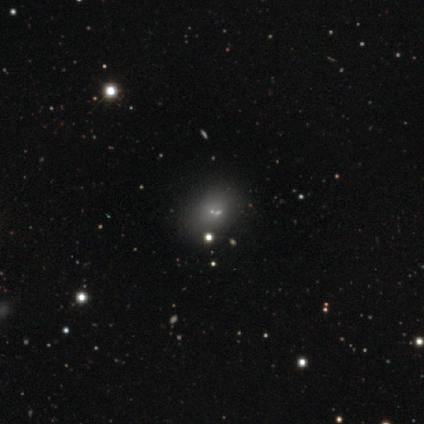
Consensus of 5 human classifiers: Q: Smooth or featured?
A: featured or disk (40%); tied with: star or artifact (40%)
Q: Edge-on disk?
A: no (100%)
Q: Bar?
A: no (100%)
Q: Spiral arms?
A: no (100%)
Q: Bulge size?
A: moderate (50%); tied with: small (50%)
Q: Merging?
A: none (33%); tied with: minor disturbance (33%); major disturbance (33%)